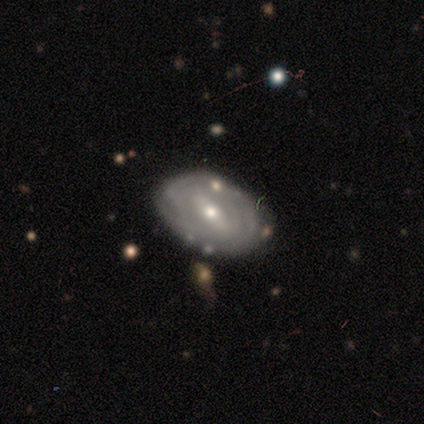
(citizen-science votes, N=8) Overall: featured or disk (75%). Edge-on disk: no (100%). Bar: strong (50%; no 33%). Spiral arms: yes (50%, tied with no). Spiral arm count: 4 (33%, tied with more than 4 and can't tell). Spiral winding: tight (67%; medium 33%). Bulge size: moderate (50%; small 33%). Merging: none (88%).